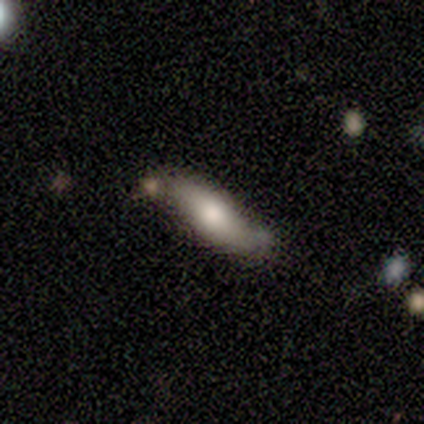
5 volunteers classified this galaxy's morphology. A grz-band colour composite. It shows a smooth galaxy with no disk features (80%) that is cigar-shaped (100%). Merging: none (60%).